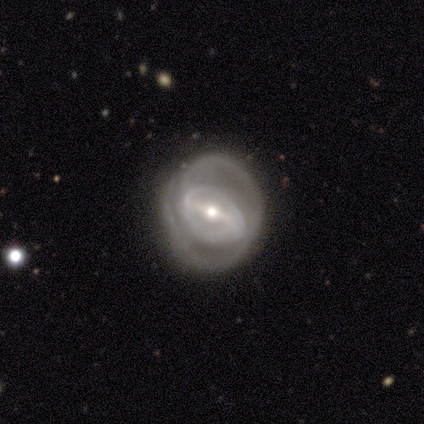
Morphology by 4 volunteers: Overall: featured or disk (50%; smooth 25%). Edge-on disk: no (100%). Bar: weak (100%). Spiral arms: yes (100%). Spiral arm count: 1 (50%, tied with 2). Spiral winding: tight (50%, tied with loose). Bulge size: moderate (50%, tied with small). Merging: none (100%).